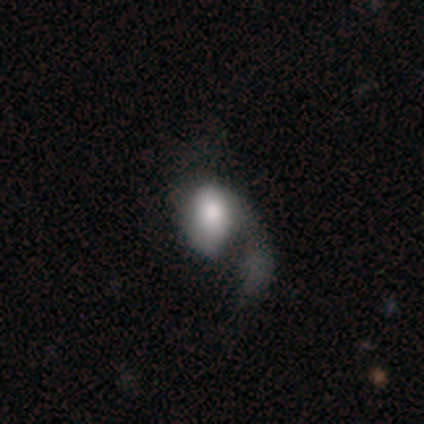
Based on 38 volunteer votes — This is possibly a smooth galaxy (55%). How rounded: likely in between (76%). Merging: possibly major disturbance (58%).